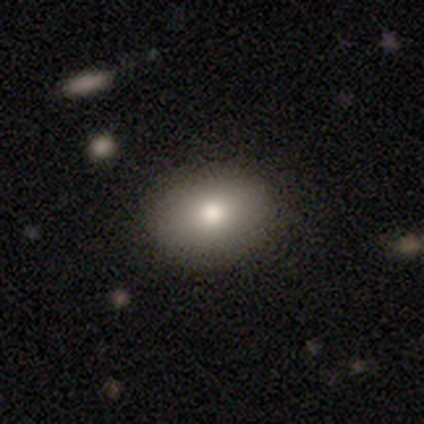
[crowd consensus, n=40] smooth 90%, featured or disk 10%, star or artifact 0%. Down the decision tree: how rounded — in between (83%); merging — none (88%).